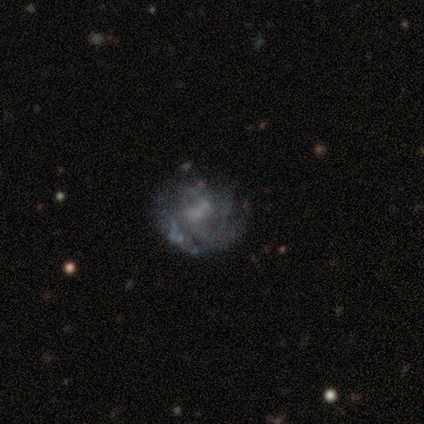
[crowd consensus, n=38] Smooth or featured? 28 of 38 (74%) said featured or disk. Edge-on disk? 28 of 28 (100%) said no. Bar? 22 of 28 (79%) said no. Spiral arms? 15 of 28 (54%) said yes. Spiral winding? 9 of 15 (60%) said tight. Spiral arm count? 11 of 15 (73%) said can't tell. Bulge size? 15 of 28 (54%) said none. Merging? 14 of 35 (40%) said none.